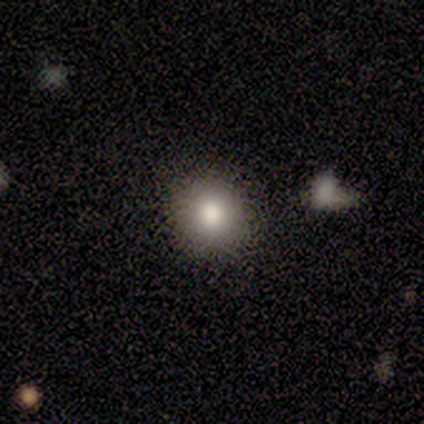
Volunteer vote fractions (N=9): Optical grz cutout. It shows a smooth galaxy with no disk features (100%) that is round (89%). Merging: none (89%).